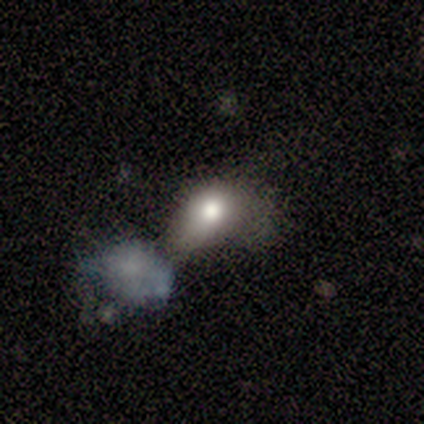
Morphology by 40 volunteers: Smooth or featured? 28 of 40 (70%) said smooth. How rounded? 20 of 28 (71%) said in between. Merging? 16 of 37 (43%) said merger.